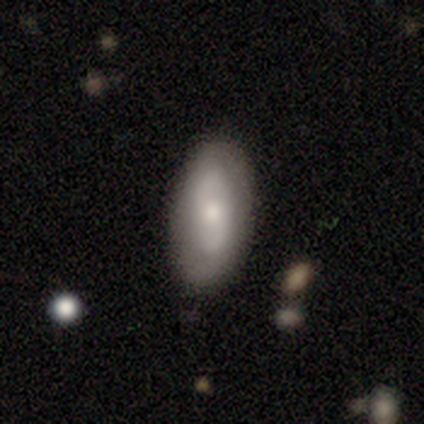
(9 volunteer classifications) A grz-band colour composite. It shows a featured or disk galaxy (78%) with no bar (86%), no spiral arms (71%) and a small central bulge (57%). Merging: none (44%, tied with minor disturbance).